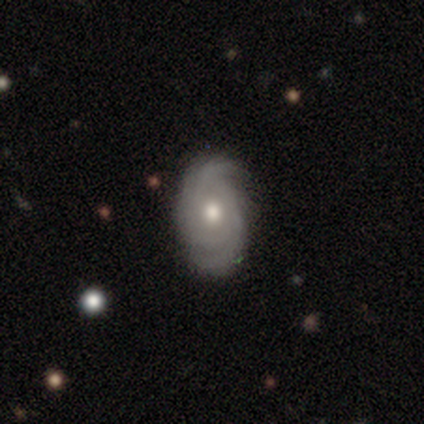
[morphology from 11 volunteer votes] This is clearly a featured or disk galaxy (100%). It is clearly not viewed edge-on (100%). Bar: clearly no (82%). Spiral arm pattern: clearly yes (100%). Spiral arm count: possibly 2 (45%). Spiral winding: clearly tight (91%). Central bulge: clearly moderate (100%). Merging: clearly none (100%).